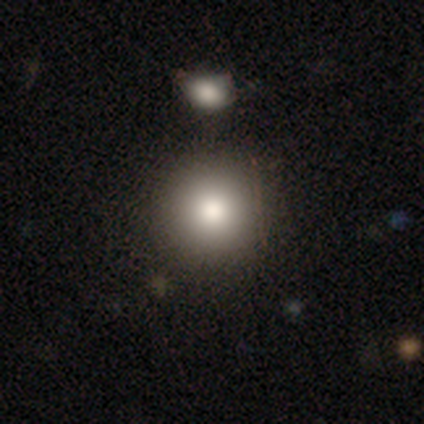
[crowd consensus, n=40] Smooth or featured?
  - smooth: 88% *
  - featured or disk: 8%
  - star or artifact: 5%
How rounded?
  - round: 100% *
  - in between: 0%
  - cigar-shaped: 0%
Merging?
  - none: 68% *
  - minor disturbance: 11%
  - merger: 11%
  - major disturbance: 0%